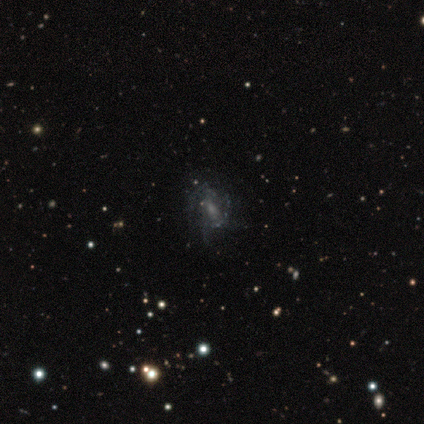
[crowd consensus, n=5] Smooth or featured? 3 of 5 (60%) said featured or disk. Edge-on disk? 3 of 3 (100%) said no. Bar? 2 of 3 (67%) said no. Spiral arms? 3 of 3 (100%) said yes. Spiral winding? 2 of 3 (67%) said loose. Spiral arm count? 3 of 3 (100%) said can't tell. Bulge size? 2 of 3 (67%) said moderate. Merging? 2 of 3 (67%) said none.